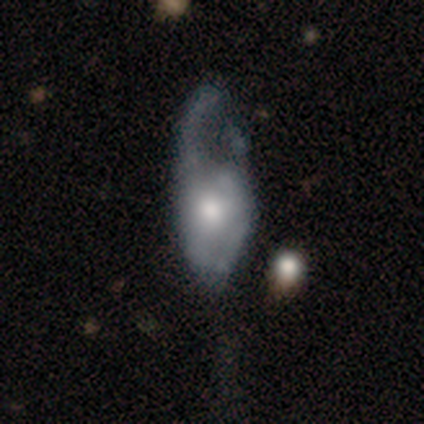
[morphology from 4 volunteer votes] A featured or disk galaxy (100%) with no bar (75%), no spiral arms (75%) and a moderate central bulge (75%). Merging: major disturbance (75%).